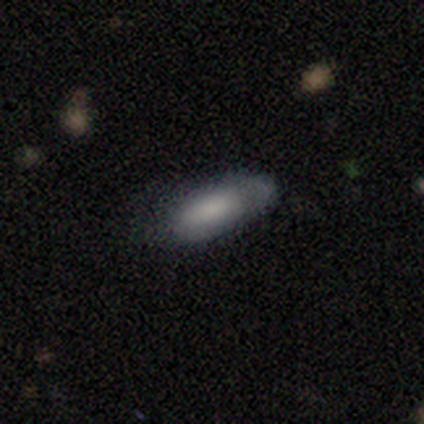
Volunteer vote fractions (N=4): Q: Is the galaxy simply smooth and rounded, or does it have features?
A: smooth — 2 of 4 (50%, tied with featured or disk).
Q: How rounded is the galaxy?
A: in between — 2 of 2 (100%).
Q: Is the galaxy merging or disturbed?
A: none — 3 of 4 (75%).